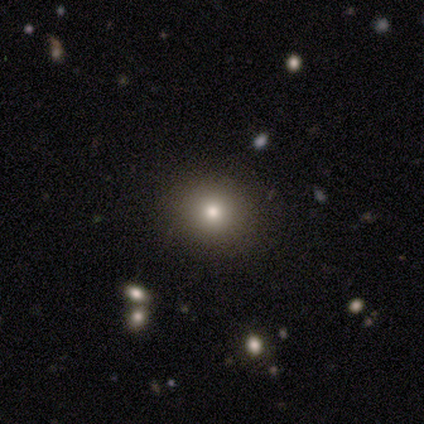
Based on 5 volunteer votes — A smooth galaxy with no disk features (80%) that is round (100%).

Vote fractions:
- Smooth or featured? smooth: 80% / star or artifact: 20% / featured or disk: 0%
- How rounded? round: 100% / in between: 0% / cigar-shaped: 0%
- Merging? none: 100% / minor disturbance: 0% / major disturbance: 0% / merger: 0%